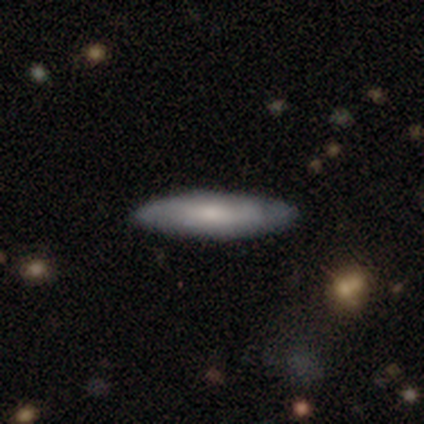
This is likely a smooth galaxy (62%). How rounded: likely cigar-shaped (76%). Merging: possibly none (46%).